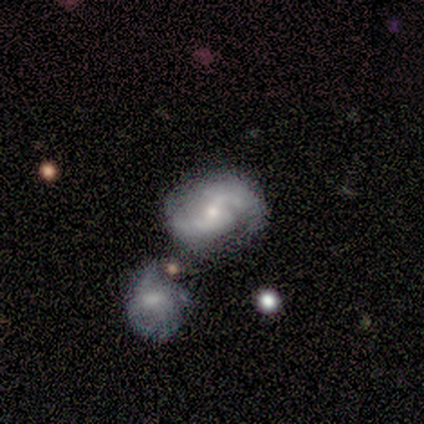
A featured or disk galaxy (100%) with a weak bar (100%), 2 (100%) loose (100%) spiral arms (100%) and a moderate central bulge (100%).

Vote fractions:
- Smooth or featured? featured or disk: 100% / smooth: 0% / star or artifact: 0%
- Edge-on disk? no: 100% / yes: 0%
- Bar? weak: 100% / strong: 0% / no: 0%
- Spiral arms? yes: 100% / no: 0%
- Spiral winding? loose: 100% / tight: 0% / medium: 0%
- Spiral arm count? 2: 100% / 1: 0% / 3: 0% / 4: 0% / more than 4: 0% / can't tell: 0%
- Bulge size? moderate: 100% / dominant: 0% / large: 0% / small: 0% / none: 0%
- Merging? none: 100% / minor disturbance: 0% / major disturbance: 0% / merger: 0%